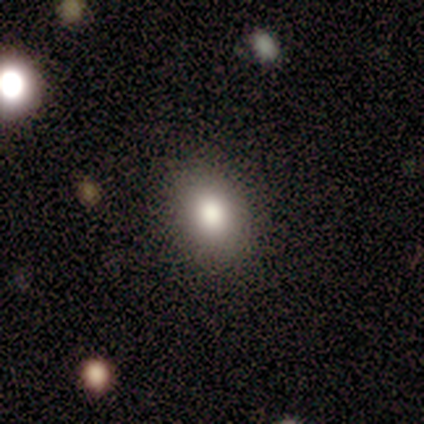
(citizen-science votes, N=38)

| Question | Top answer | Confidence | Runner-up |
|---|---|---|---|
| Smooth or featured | smooth | 74% | featured or disk (16%) |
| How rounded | in between | 79% | round (21%) |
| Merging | none | 94% | minor disturbance (6%) |